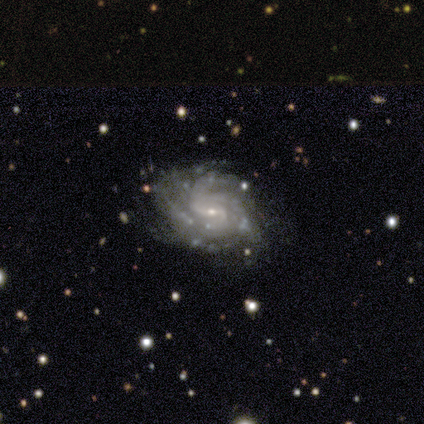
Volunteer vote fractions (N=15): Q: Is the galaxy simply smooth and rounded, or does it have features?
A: featured or disk — 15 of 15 (100%).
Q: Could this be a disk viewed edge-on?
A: no — 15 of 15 (100%).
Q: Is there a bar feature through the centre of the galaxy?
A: weak — 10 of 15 (67%).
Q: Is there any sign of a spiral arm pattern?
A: yes — 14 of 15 (93%).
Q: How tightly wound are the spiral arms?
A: tight — 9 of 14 (64%).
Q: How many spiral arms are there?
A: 3 — 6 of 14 (43%).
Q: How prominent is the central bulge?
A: small — 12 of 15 (80%).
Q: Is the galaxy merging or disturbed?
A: none — 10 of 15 (67%).